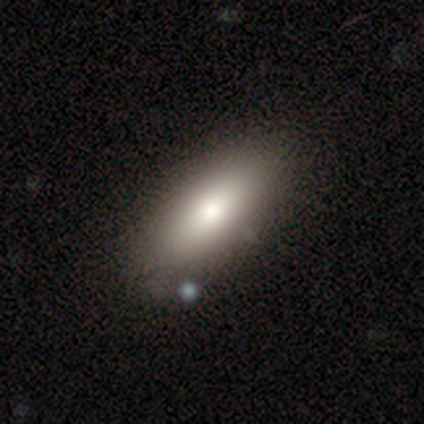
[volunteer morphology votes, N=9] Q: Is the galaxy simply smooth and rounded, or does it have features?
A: smooth — 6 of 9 (67%).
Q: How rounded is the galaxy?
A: in between — 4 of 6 (67%).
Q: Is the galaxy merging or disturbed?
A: none — 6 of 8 (75%).